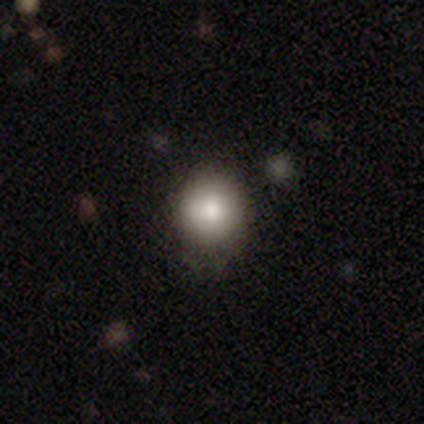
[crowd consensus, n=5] Smooth or featured? smooth (80%)
How rounded? round (100%)
Merging? none (40%, tied with minor disturbance)